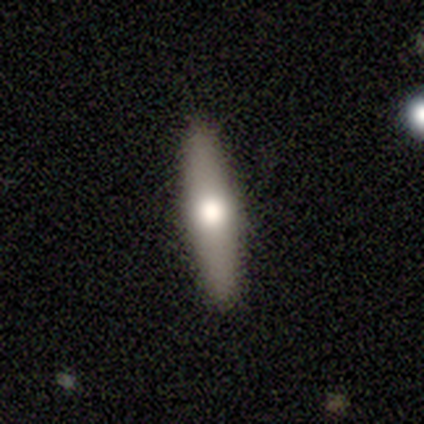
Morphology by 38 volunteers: smooth_or_featured: smooth (p=0.53) [alt: featured or disk p=0.45]
how_rounded: cigar-shaped (p=0.90) [alt: in between p=0.10]
merging: none (p=0.92) [alt: minor disturbance p=0.08]